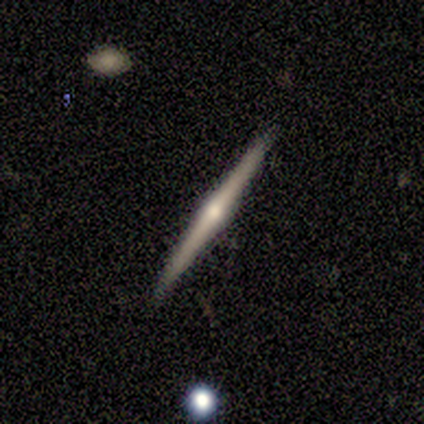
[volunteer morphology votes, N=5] Smooth or featured? featured or disk (100%)
Edge-on disk? yes (100%)
Edge-on bulge? rounded (80%)
Merging? none (100%)